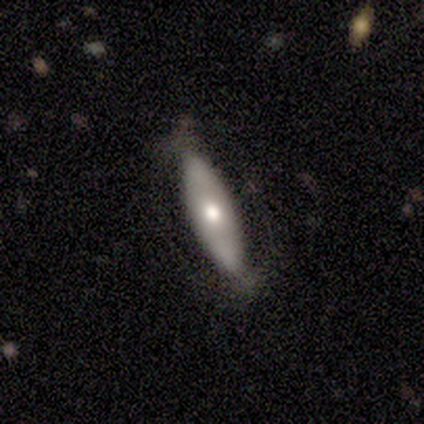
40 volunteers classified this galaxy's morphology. This is possibly a featured or disk galaxy (48%). It is likely not viewed edge-on (74%). Bar: likely no (71%). Spiral arm pattern: likely no (64%). Central bulge: likely moderate (79%). Merging: likely none (75%).